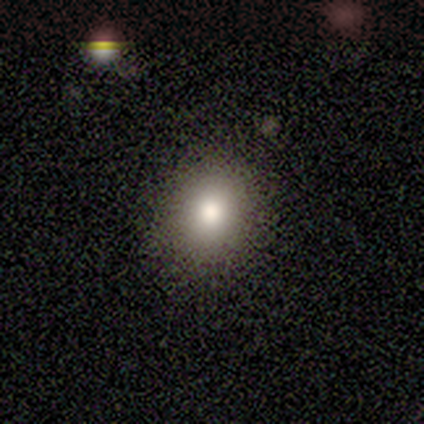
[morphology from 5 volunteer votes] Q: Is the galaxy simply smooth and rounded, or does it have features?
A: smooth — 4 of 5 (80%).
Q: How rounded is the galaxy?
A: round — 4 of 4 (100%).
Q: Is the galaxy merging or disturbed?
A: none — 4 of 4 (100%).